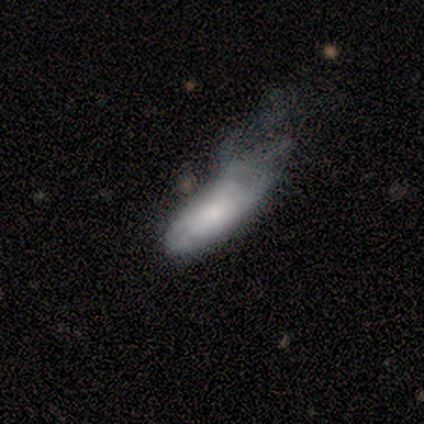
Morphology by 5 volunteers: Q: Smooth or featured?
A: smooth (100%)
Q: How rounded?
A: cigar-shaped (60%); runner-up: in between (40%)
Q: Merging?
A: major disturbance (60%); runner-up: none (20%)